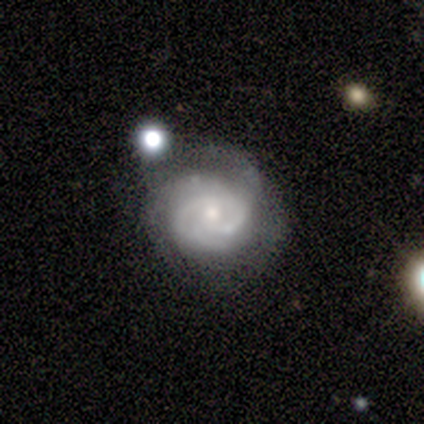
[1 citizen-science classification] Smooth or featured? featured or disk (100%)
Edge-on disk? no (100%)
Bar? weak (100%)
Spiral arms? yes (100%)
Spiral winding? tight (100%)
Spiral arm count? 2 (100%)
Bulge size? moderate (100%)
Merging? none (100%)